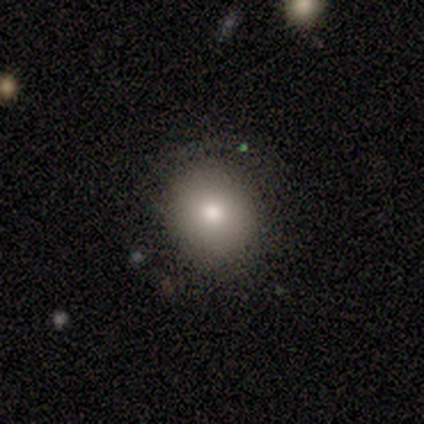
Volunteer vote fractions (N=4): This appears to be a smooth galaxy with no disk features (100%) that is round (100%). Merging: none (75%).